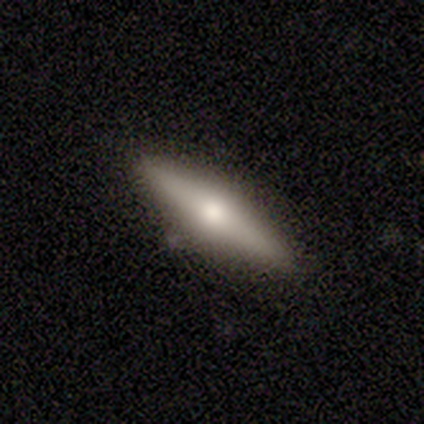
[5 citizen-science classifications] This is likely a smooth galaxy (60%). How rounded: clearly cigar-shaped (100%). Merging: clearly none (100%).